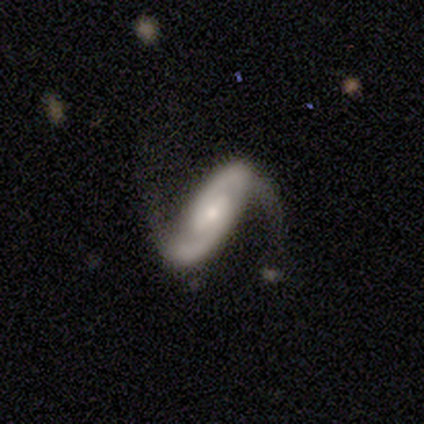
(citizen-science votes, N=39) This is clearly a featured or disk galaxy (82%). It is clearly not viewed edge-on (100%). Bar: marginally strong (44%). Spiral arm pattern: clearly yes (91%). Spiral arm count: clearly 2 (97%). Spiral winding: marginally loose (41%). Central bulge: likely small (62%). Merging: possibly none (58%).